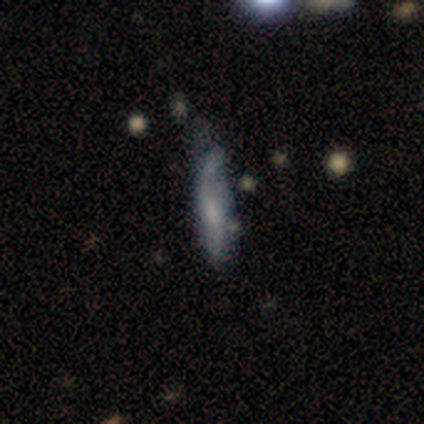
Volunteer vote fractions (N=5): This appears to be a smooth galaxy with no disk features (100%) that is cigar-shaped (80%). Merging: minor disturbance (80%).